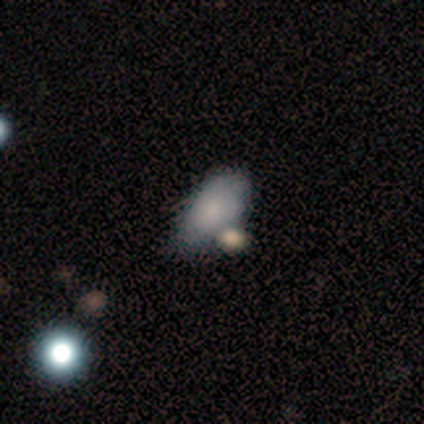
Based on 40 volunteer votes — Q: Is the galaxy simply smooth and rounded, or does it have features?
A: smooth — 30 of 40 (75%).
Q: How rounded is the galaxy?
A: in between — 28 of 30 (93%).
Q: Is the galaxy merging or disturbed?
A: minor disturbance — 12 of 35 (34%).